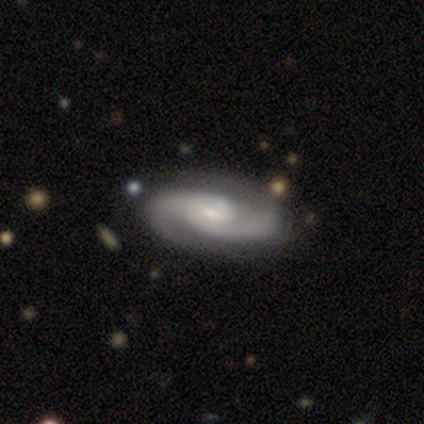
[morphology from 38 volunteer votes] This is clearly a featured or disk galaxy (97%). It is clearly not viewed edge-on (100%). Bar: possibly no (57%). Spiral arm pattern: clearly yes (97%). Spiral arm count: clearly 2 (92%). Spiral winding: marginally tight (44%). Central bulge: possibly small (51%). Merging: likely none (61%).